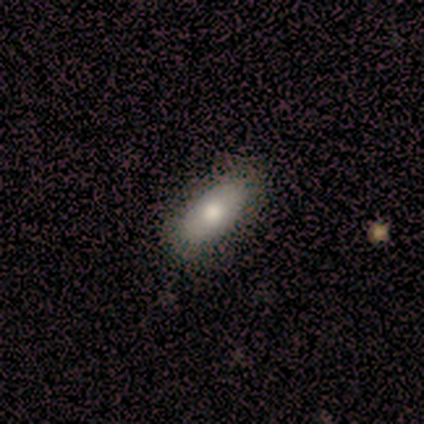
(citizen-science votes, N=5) Morphology: type=smooth (80%); roundness=in between (100%); merging=none (100%).